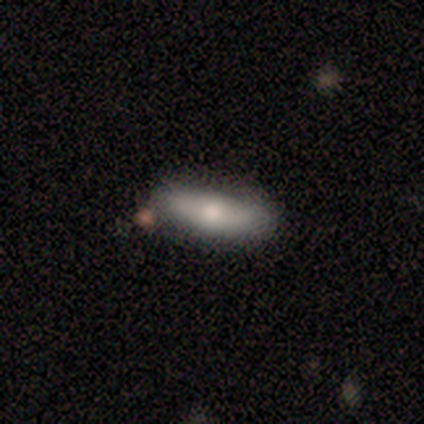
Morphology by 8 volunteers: This appears to be a smooth galaxy with no disk features (50%, tied with featured or disk) that is in between round and cigar-shaped (50%, tied with cigar-shaped). Merging: none (88%).